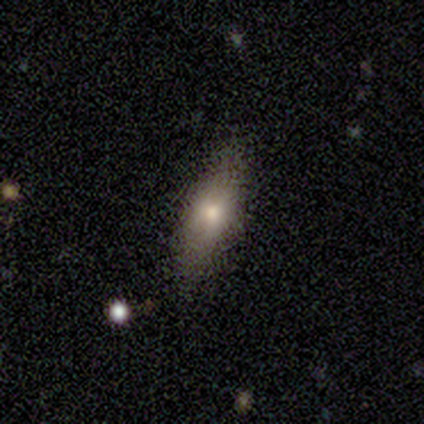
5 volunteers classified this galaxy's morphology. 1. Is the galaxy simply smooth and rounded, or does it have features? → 100% smooth, 0% featured or disk, 0% star or artifact.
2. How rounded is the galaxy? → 80% in between, 20% cigar-shaped, 0% round.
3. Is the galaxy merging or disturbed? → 80% none, 20% minor disturbance, 0% major disturbance, 0% merger.